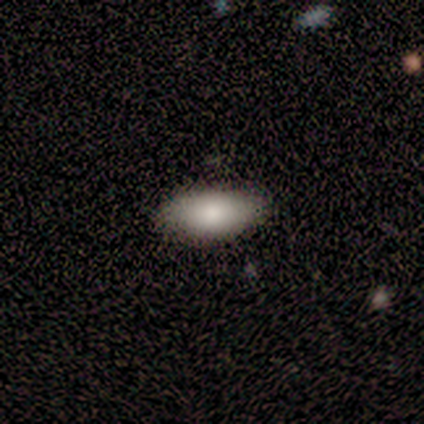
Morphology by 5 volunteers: smooth 80%, star or artifact 20%, featured or disk 0%. Down the decision tree: how rounded — in between (100%); merging — none (100%).